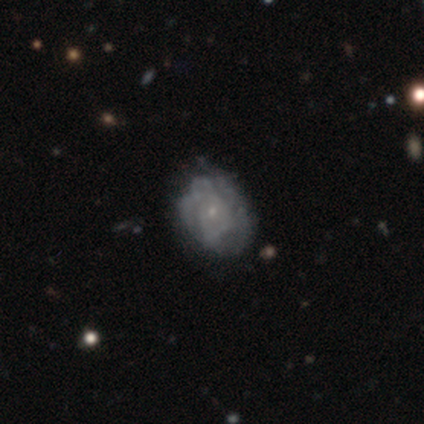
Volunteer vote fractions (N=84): Morphology: type=featured or disk (71%); edge-on=no (100%); bar=no (90%); spiral arms=yes (57%); winding=tight (53%); arm count=can't tell (56%); bulge=small (92%); merging=none (64%).